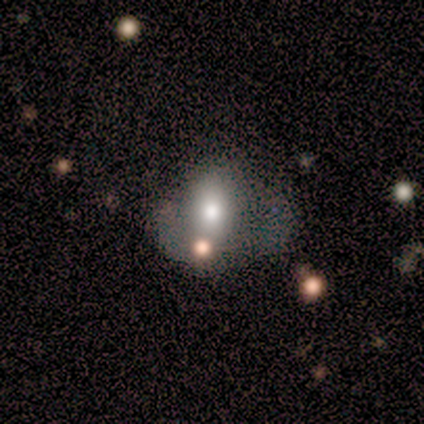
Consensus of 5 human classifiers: A smooth galaxy with no disk features (60%) that is in between round and cigar-shaped (100%).

Vote fractions:
- Smooth or featured? smooth: 60% / featured or disk: 40% / star or artifact: 0%
- How rounded? in between: 100% / round: 0% / cigar-shaped: 0%
- Merging? minor disturbance: 60% / none: 40% / major disturbance: 0% / merger: 0%